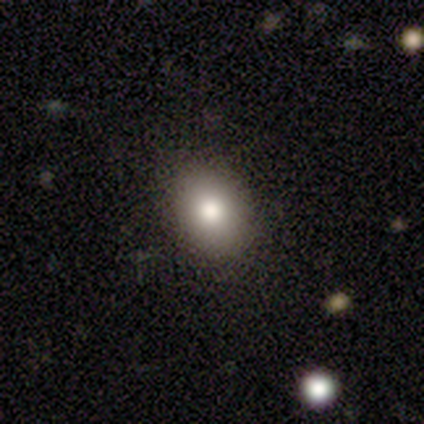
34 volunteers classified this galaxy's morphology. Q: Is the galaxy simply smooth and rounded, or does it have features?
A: smooth — 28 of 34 (82%).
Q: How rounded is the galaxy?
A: in between — 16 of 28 (57%).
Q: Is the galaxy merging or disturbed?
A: none — 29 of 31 (94%).